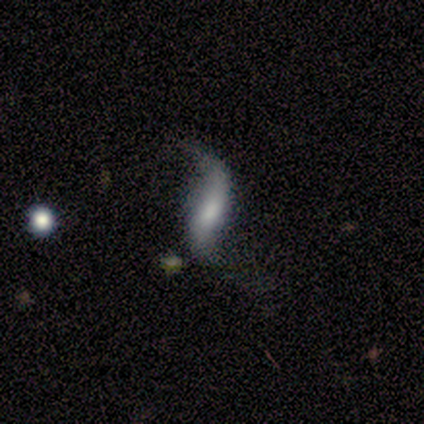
Overall: featured or disk (70%). Edge-on disk: no (97%). Bar: weak (39%, tied with no). Spiral arms: yes (97%). Spiral arm count: 2 (90%). Spiral winding: loose (93%). Bulge size: moderate (48%; small 23%). Merging: none (34%; minor disturbance 32%).